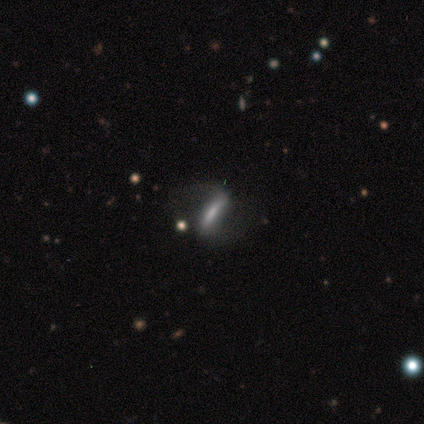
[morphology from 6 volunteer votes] smooth_or_featured: featured or disk (p=0.67) [alt: smooth p=0.33]
disk_edge_on: no (p=0.75) [alt: yes p=0.25]
bar: strong (p=0.67) [alt: weak p=0.33]
has_spiral_arms: yes (p=0.67) [alt: no p=0.33]
spiral_winding: loose (p=1.00)
spiral_arm_count: 2 (p=1.00)
bulge_size: small (p=1.00)
merging: none (p=0.50) [alt: major disturbance p=0.33]